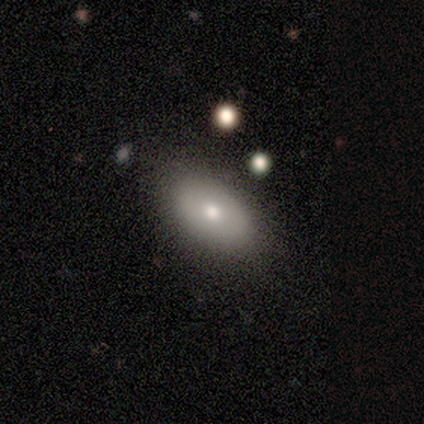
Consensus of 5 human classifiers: smooth-or-featured: smooth: 100% | featured or disk: 0% | star or artifact: 0%
  how-rounded: in between: 100% | round: 0% | cigar-shaped: 0%
  merging: none: 80% | major disturbance: 20% | minor disturbance: 0% | merger: 0%